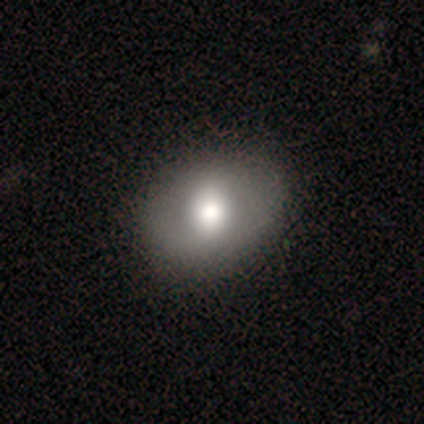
Smooth or featured? 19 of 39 (49%) said smooth. How rounded? 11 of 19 (58%) said in between. Merging? 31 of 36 (86%) said none.